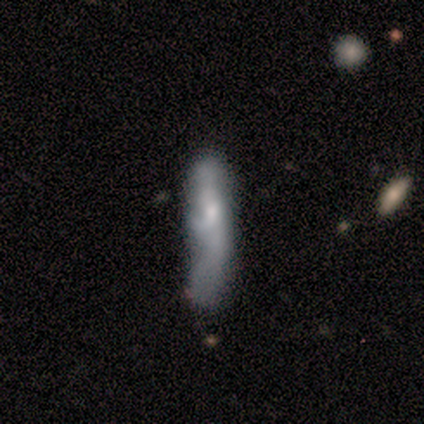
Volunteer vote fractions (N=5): smooth-or-featured: smooth: 80% | featured or disk: 20% | star or artifact: 0%
  how-rounded: cigar-shaped: 100% | round: 0% | in between: 0%
  merging: minor disturbance: 60% | none: 20% | major disturbance: 20% | merger: 0%